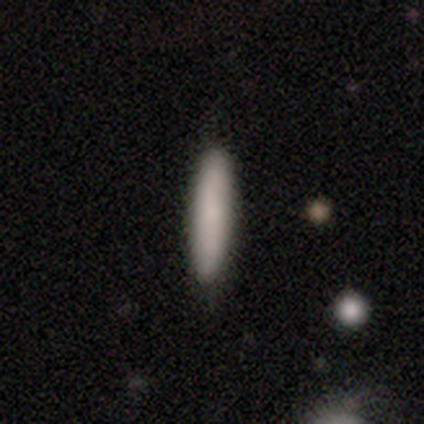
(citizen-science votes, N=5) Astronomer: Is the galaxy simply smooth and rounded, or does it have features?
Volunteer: smooth — 80%.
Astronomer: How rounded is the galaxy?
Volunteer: cigar-shaped — 75%.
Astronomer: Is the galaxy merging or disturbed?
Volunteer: none — 100%.